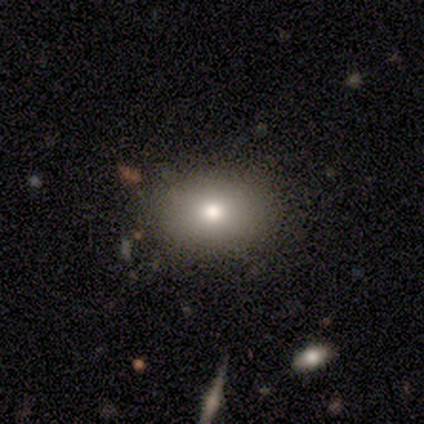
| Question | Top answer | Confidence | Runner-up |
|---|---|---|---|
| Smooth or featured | smooth | 83% | star or artifact (11%) |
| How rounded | in between | 57% | round (43%) |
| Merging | none | 91% | minor disturbance (9%) |